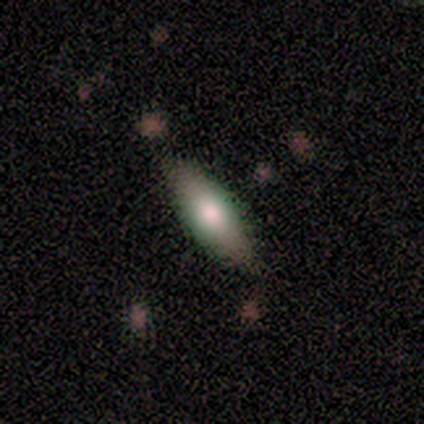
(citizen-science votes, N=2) A smooth galaxy with no disk features (100%) that is in between round and cigar-shaped (50%, tied with cigar-shaped). Merging: none (50%, tied with minor disturbance).